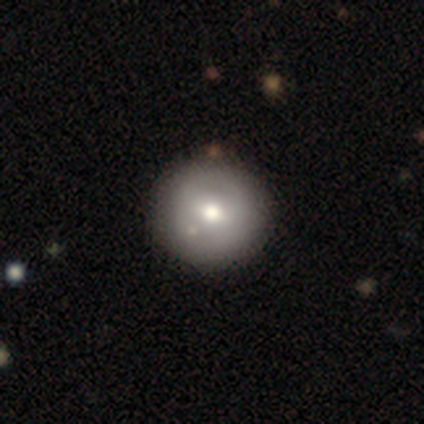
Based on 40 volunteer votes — smooth-or-featured: smooth: 72% | featured or disk: 22% | star or artifact: 5%
  how-rounded: round: 100% | in between: 0% | cigar-shaped: 0%
  merging: none: 87% | minor disturbance: 11% | merger: 3% | major disturbance: 0%